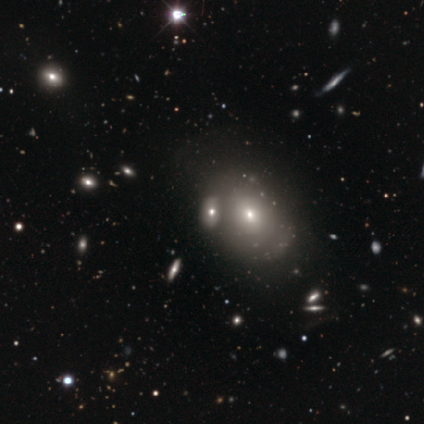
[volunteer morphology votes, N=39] Volunteers were most divided on "merging": none: 57%, merger: 30%, minor disturbance: 13%, major disturbance: 0%. More confident: how rounded — in between (79%); smooth or featured — smooth (62%).